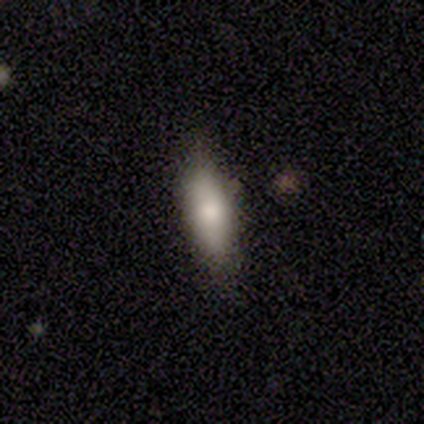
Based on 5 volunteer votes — Volunteers were most divided on "how rounded": in between: 80%, cigar-shaped: 20%, round: 0%. More confident: smooth or featured — smooth (100%); merging — none (80%).